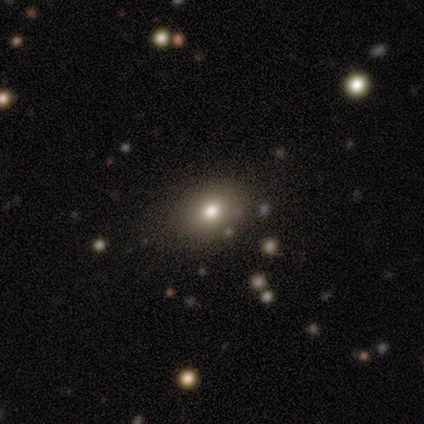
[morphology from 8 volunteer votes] Smooth or featured? smooth (62%)
How rounded? in between (60%)
Merging? none (71%)